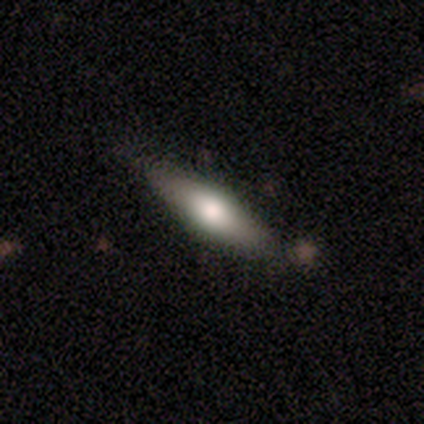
smooth 56%, featured or disk 41%, star or artifact 3%. Down the decision tree: how rounded — in between (59%); merging — none (58%).